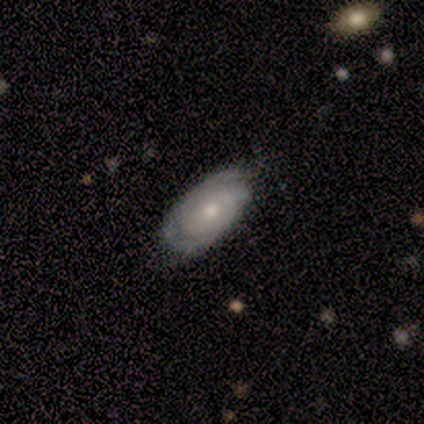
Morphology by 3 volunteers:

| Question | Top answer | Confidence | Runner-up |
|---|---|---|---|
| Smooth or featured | featured or disk | 67% | smooth (33%) |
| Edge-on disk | no | 100% | — |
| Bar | weak | 50% | tied: no (50%) |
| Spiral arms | yes | 50% | tied: no (50%) |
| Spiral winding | medium | 100% | — |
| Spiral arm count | can't tell | 100% | — |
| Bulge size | moderate | 50% | tied: small (50%) |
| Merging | none | 100% | — |